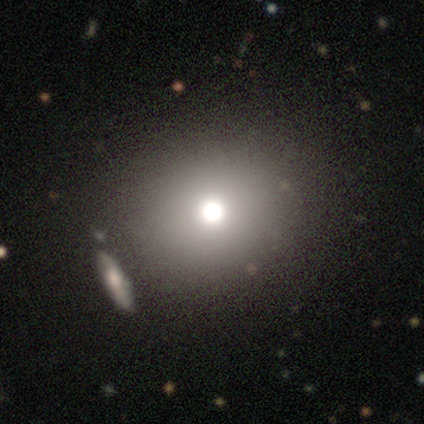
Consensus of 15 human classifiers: A smooth galaxy with no disk features (67%) that is round (80%). Merging: none (83%).